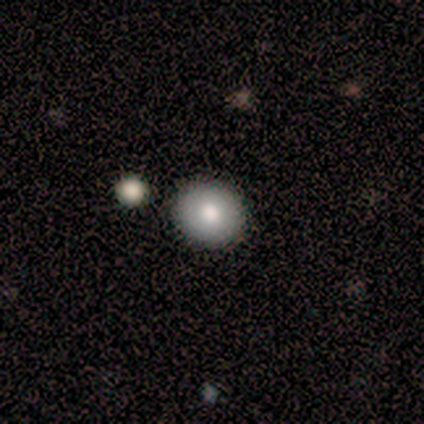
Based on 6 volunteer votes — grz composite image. It shows a smooth galaxy with no disk features (67%) that is round (100%). Merging: none (100%).